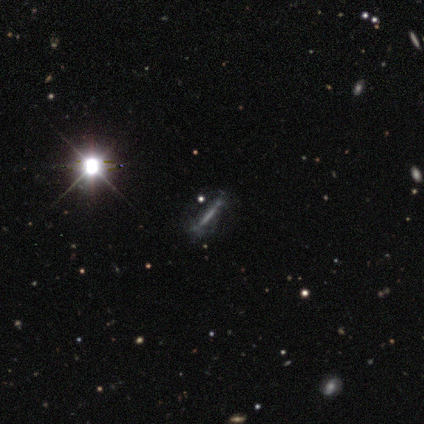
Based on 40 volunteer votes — Smooth or featured: featured or disk — 45% (star or artifact — 42%)
Edge-on disk: yes — 61% (no — 39%)
Edge-on bulge: none — 91% (rounded — 9%)
Merging: none — 78% (major disturbance — 13%)